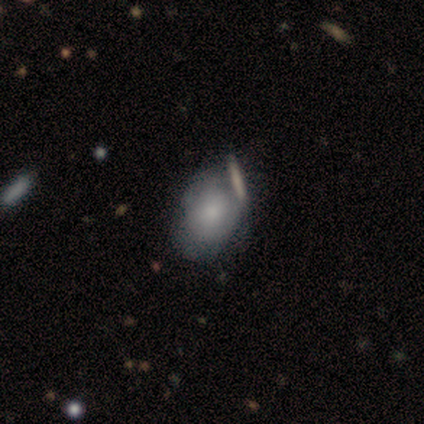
Volunteers were most divided on "merging" (2-way tie): none: 40%, minor disturbance: 40%, major disturbance: 20%, merger: 0%. More confident: how rounded — in between (100%); smooth or featured — smooth (60%).